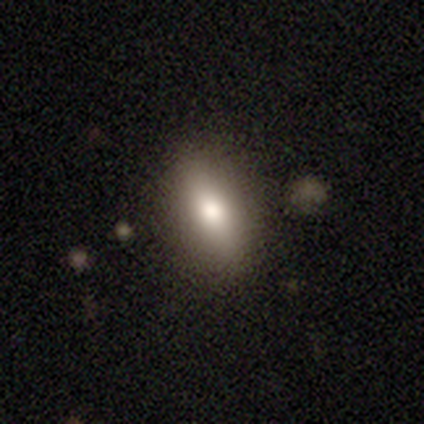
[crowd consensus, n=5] Volunteers were most divided on "how rounded": in between: 80%, cigar-shaped: 20%, round: 0%. More confident: smooth or featured — smooth (100%); merging — none (80%).